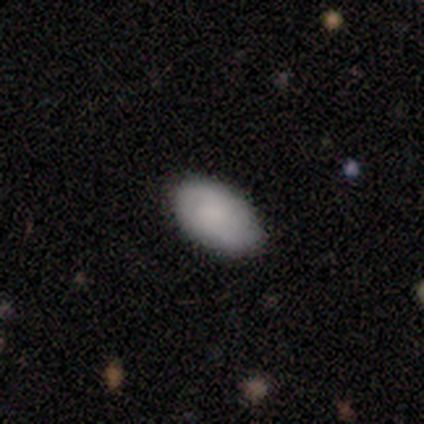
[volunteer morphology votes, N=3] smooth-or-featured: smooth: 100% | featured or disk: 0% | star or artifact: 0%
  how-rounded: in between: 67% | round: 33% | cigar-shaped: 0%
  merging: none: 67% | minor disturbance: 33% | major disturbance: 0% | merger: 0%